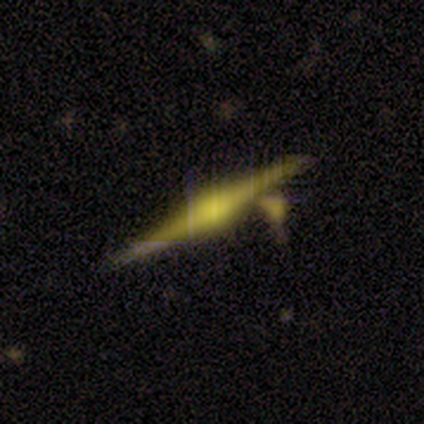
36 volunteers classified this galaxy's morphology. smooth_or_featured: featured or disk (p=0.83) [alt: smooth p=0.14]
disk_edge_on: yes (p=1.00)
edge_on_bulge: rounded (p=0.93) [alt: boxy p=0.07]
merging: none (p=0.57) [alt: minor disturbance p=0.23]